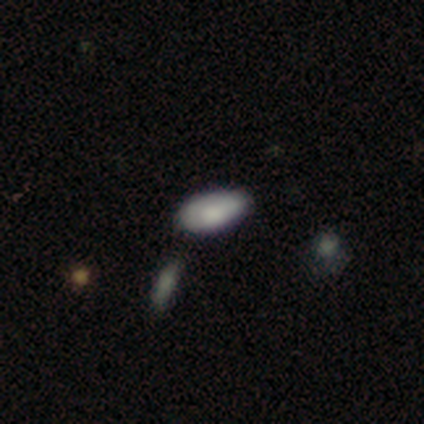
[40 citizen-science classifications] This appears to be a smooth galaxy with no disk features (85%) that is in between round and cigar-shaped (100%). Merging: none (50%).